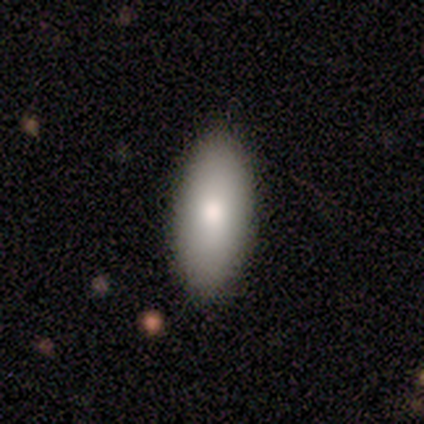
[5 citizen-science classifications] A smooth galaxy with no disk features (100%) that is in between round and cigar-shaped (60%).

Vote fractions:
- Smooth or featured? smooth: 100% / featured or disk: 0% / star or artifact: 0%
- How rounded? in between: 60% / cigar-shaped: 40% / round: 0%
- Merging? none: 60% / minor disturbance: 40% / major disturbance: 0% / merger: 0%